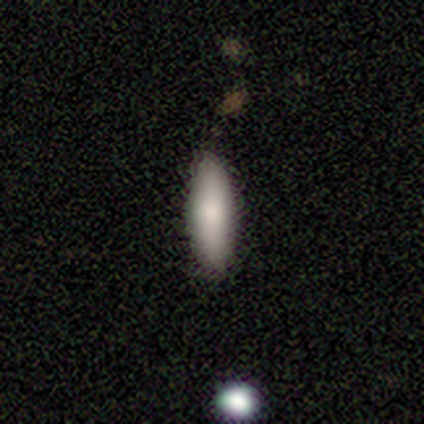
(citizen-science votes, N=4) Q: Smooth or featured?
A: smooth (100%)
Q: How rounded?
A: in between (75%); runner-up: cigar-shaped (25%)
Q: Merging?
A: none (100%)